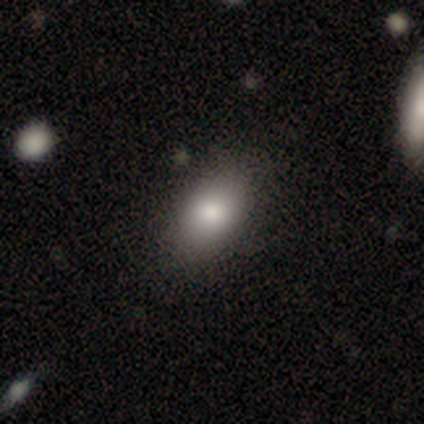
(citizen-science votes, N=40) smooth 85%, featured or disk 12%, star or artifact 2%. Down the decision tree: how rounded — in between (94%); merging — none (67%).